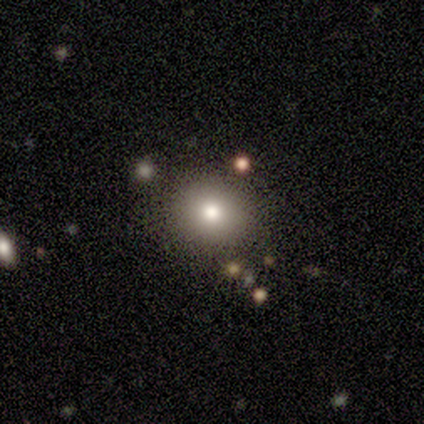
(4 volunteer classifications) smooth 75%, star or artifact 25%, featured or disk 0%. Down the decision tree: how rounded — round (67%); merging — none (100%).